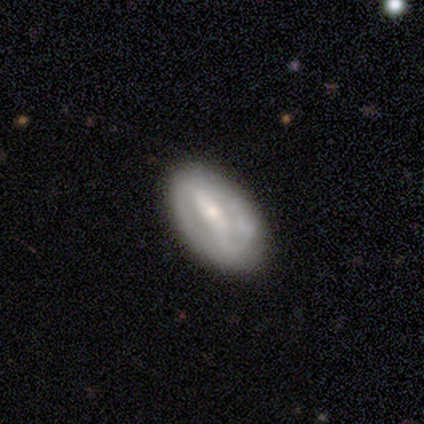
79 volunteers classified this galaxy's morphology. Smooth or featured?
  - featured or disk: 72% *
  - smooth: 24%
  - star or artifact: 4%
Edge-on disk?
  - no: 98% *
  - yes: 2%
Bar?
  - strong: 70% *
  - weak: 23%
  - no: 7%
Spiral arms?
  - yes: 54% *
  - no: 46%
Spiral winding?
  - tight: 50% *
  - loose: 33%
  - medium: 17%
Spiral arm count?
  - 2: 57% *
  - can't tell: 37%
  - 1: 3%
  - 3: 3%
  - 4: 0%
  - more than 4: 0%
Bulge size?
  - moderate: 50% *
  - small: 45%
  - large: 4%
  - none: 2%
  - dominant: 0%
Merging?
  - none: 36% *
  - minor disturbance: 16%
  - merger: 5%
  - major disturbance: 0%